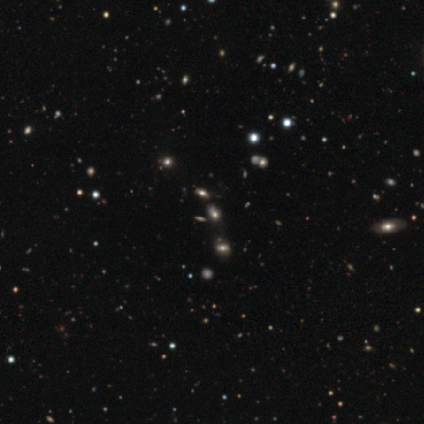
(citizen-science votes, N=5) Smooth or featured?
  - smooth: 60% *
  - featured or disk: 20%
  - star or artifact: 20%
How rounded?
  - in between: 100% *
  - round: 0%
  - cigar-shaped: 0%
Merging?
  - major disturbance: 50% *
  - minor disturbance: 25%
  - merger: 25%
  - none: 0%